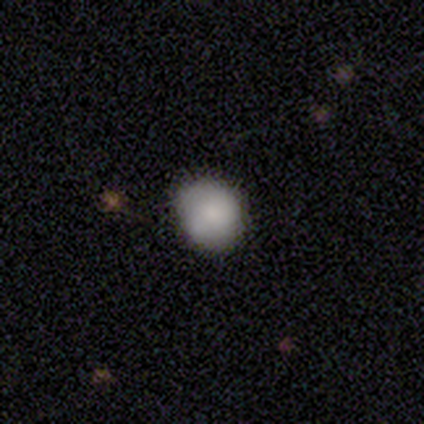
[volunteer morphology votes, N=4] type=smooth (75%); roundness=round (100%); merging=none (100%).